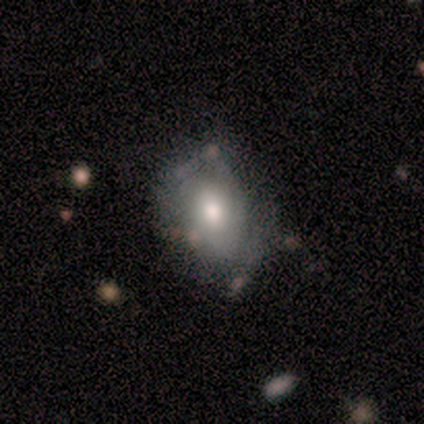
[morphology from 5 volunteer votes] smooth_or_featured: smooth (p=0.80) [alt: featured or disk p=0.20]
how_rounded: in between (p=1.00)
merging: none (p=0.60) [alt: minor disturbance p=0.40]